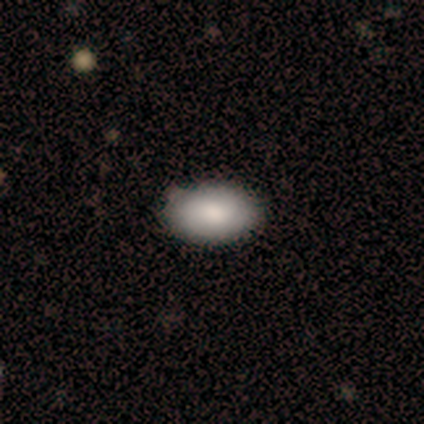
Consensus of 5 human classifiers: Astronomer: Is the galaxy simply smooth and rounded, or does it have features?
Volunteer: smooth — 100%.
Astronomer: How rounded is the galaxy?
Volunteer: in between — 100%.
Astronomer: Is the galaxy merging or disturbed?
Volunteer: none — 80%.